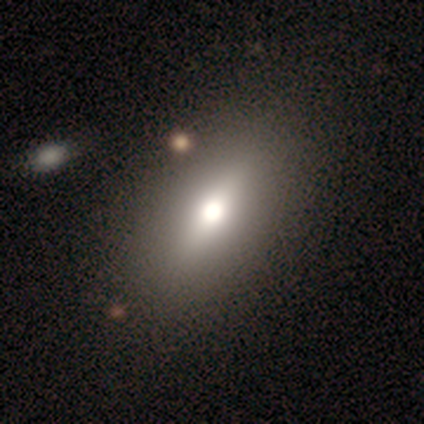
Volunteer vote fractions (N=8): Volunteers were most divided on "smooth or featured": smooth: 62%, featured or disk: 25%, star or artifact: 12%. More confident: how rounded — in between (80%); merging — none (71%).